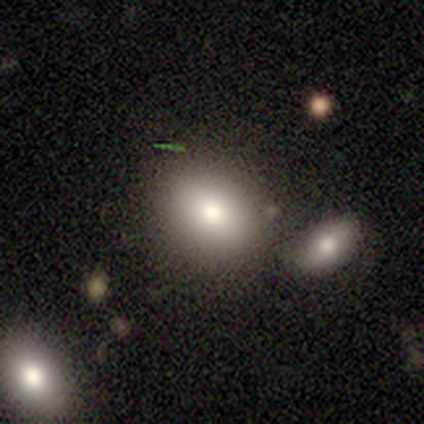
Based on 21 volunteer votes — This appears to be a smooth galaxy with no disk features (90%) that is in between round and cigar-shaped (68%). Merging: none (80%).